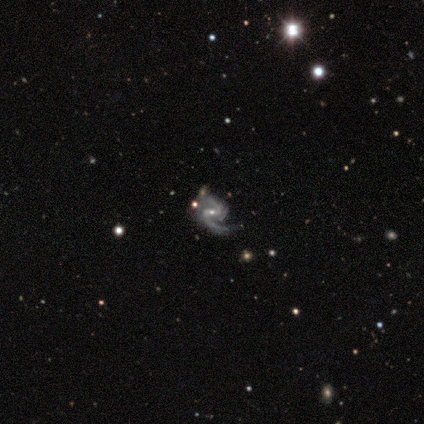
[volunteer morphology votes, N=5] A featured or disk galaxy (100%) with a weak bar (60%), 2 (80%) medium (40%, tied with loose) spiral arms (100%) and a small central bulge (80%).

Vote fractions:
- Smooth or featured? featured or disk: 100% / smooth: 0% / star or artifact: 0%
- Edge-on disk? no: 100% / yes: 0%
- Bar? weak: 60% / strong: 40% / no: 0%
- Spiral arms? yes: 100% / no: 0%
- Spiral winding? medium: 40% (tied) / loose: 40% (tied) / tight: 20%
- Spiral arm count? 2: 80% / 1: 20% / 3: 0% / 4: 0% / more than 4: 0% / can't tell: 0%
- Bulge size? small: 80% / large: 20% / dominant: 0% / moderate: 0% / none: 0%
- Merging? none: 40% (tied) / minor disturbance: 40% (tied) / major disturbance: 20% / merger: 0%